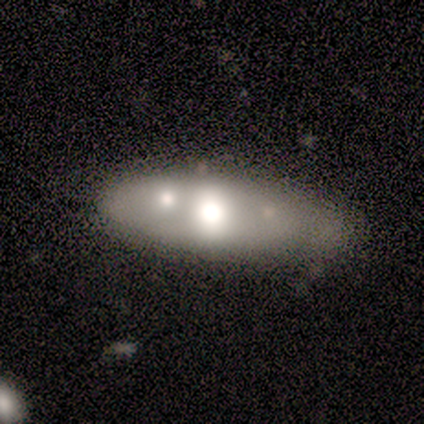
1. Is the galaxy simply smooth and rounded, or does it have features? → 60% featured or disk, 40% smooth, 0% star or artifact.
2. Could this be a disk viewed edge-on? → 67% no, 33% yes.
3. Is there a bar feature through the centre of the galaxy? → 100% no, 0% strong, 0% weak.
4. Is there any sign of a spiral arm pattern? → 100% no, 0% yes.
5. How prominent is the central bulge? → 50% moderate (tied), 50% small (tied), 0% dominant, 0% large, 0% none.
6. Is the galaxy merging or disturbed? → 40% none, 20% minor disturbance, 20% major disturbance, 20% merger.